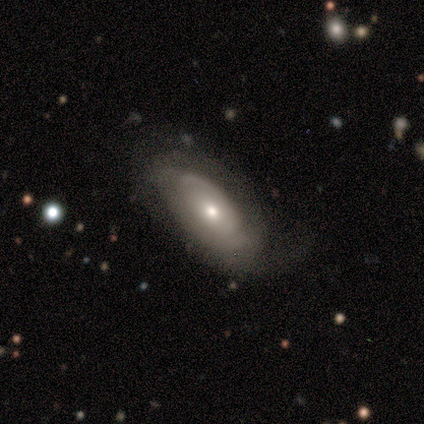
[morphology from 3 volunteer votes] Smooth or featured?
  - smooth: 100% *
  - featured or disk: 0%
  - star or artifact: 0%
How rounded?
  - in between: 100% *
  - round: 0%
  - cigar-shaped: 0%
Merging?
  - none: 33% * (tied)
  - minor disturbance: 33% * (tied)
  - major disturbance: 33% * (tied)
  - merger: 0%